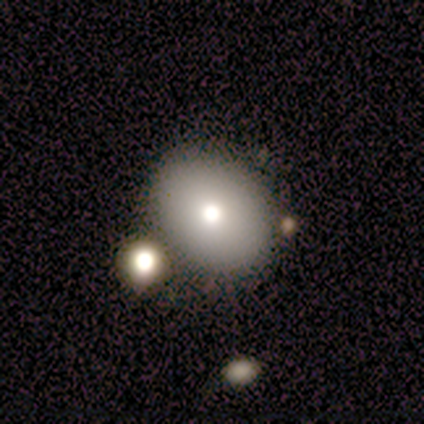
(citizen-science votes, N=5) Smooth or featured? smooth (100%)
How rounded? in between (80%)
Merging? none (80%)